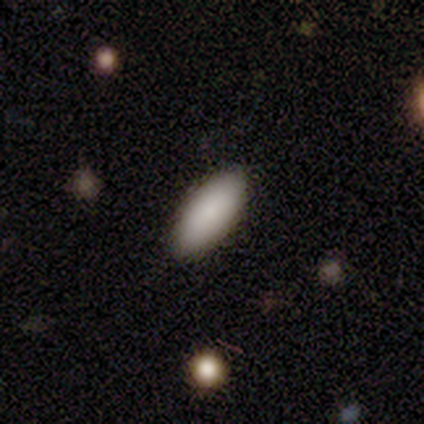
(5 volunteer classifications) smooth-or-featured: smooth: 100% | featured or disk: 0% | star or artifact: 0%
  how-rounded: in between: 80% | round: 20% | cigar-shaped: 0%
  merging: none: 100% | minor disturbance: 0% | major disturbance: 0% | merger: 0%